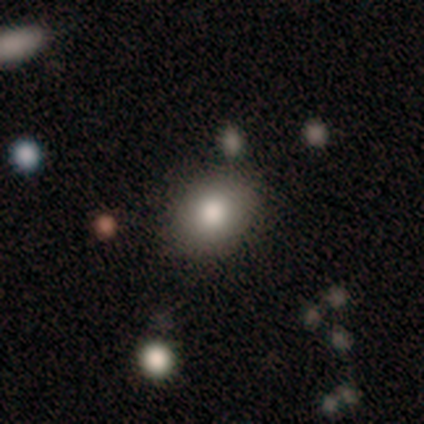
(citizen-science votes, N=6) Q: Smooth or featured?
A: smooth (100%)
Q: How rounded?
A: round (50%); tied with: in between (50%)
Q: Merging?
A: none (100%)